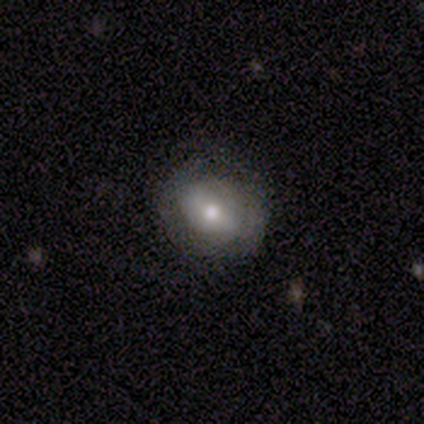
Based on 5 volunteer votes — smooth-or-featured: smooth: 40% (tied) | featured or disk: 40% (tied) | star or artifact: 20%
  how-rounded: round: 50% (tied) | in between: 50% (tied) | cigar-shaped: 0%
  merging: none: 75% | merger: 25% | minor disturbance: 0% | major disturbance: 0%